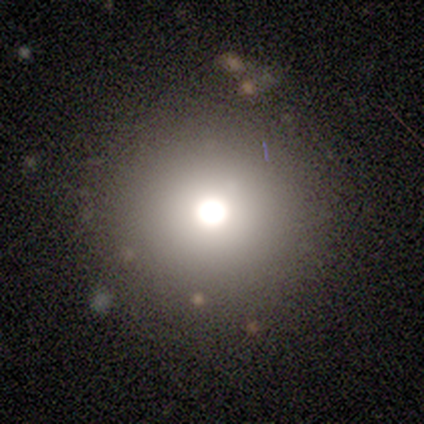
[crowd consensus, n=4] Smooth or featured: smooth — 75% (star or artifact — 25%)
How rounded: round — 100%
Merging: none — 100%